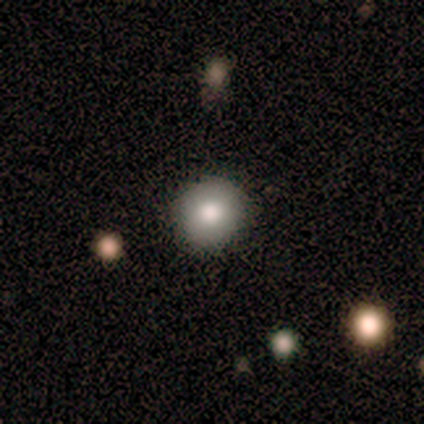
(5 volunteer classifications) This appears to be a smooth galaxy with no disk features (100%) that is round (100%). Merging: none (100%).